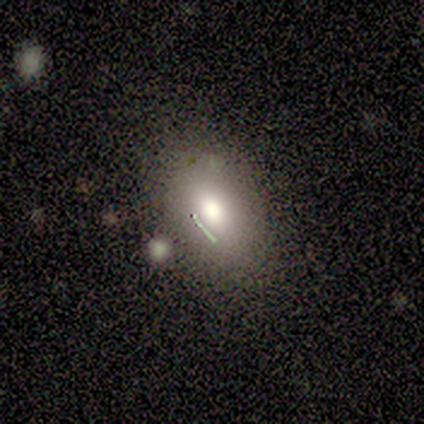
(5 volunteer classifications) Morphology: type=smooth (100%); roundness=in between (80%); merging=none (40%).